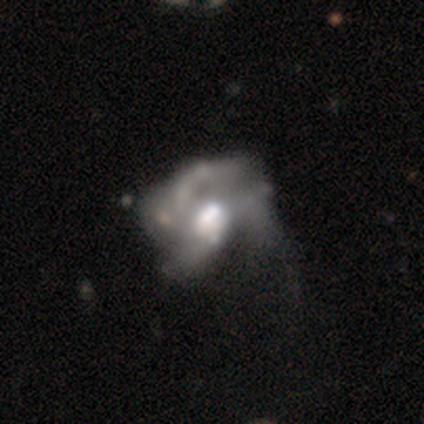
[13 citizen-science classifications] This appears to be a featured or disk galaxy (77%) with no bar (88%), no spiral arms (75%) and a large central bulge (38%, tied with moderate). Merging: major disturbance (58%).